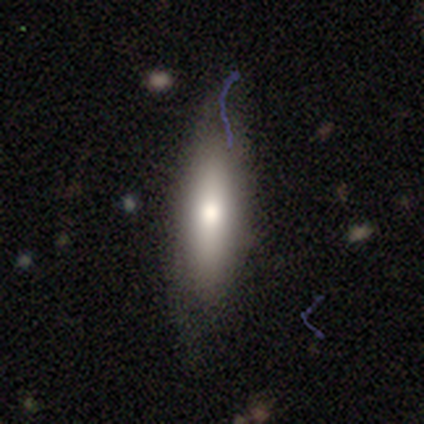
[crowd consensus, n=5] Overall: smooth (100%). How rounded: cigar-shaped (60%; in between 40%). Merging: none (80%).